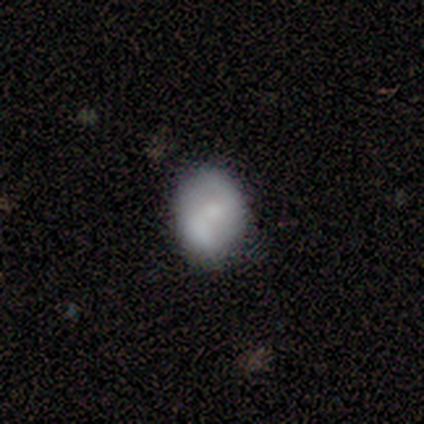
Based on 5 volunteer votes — This is likely a smooth galaxy (60%). How rounded: likely in between (67%). Merging: likely none (60%).